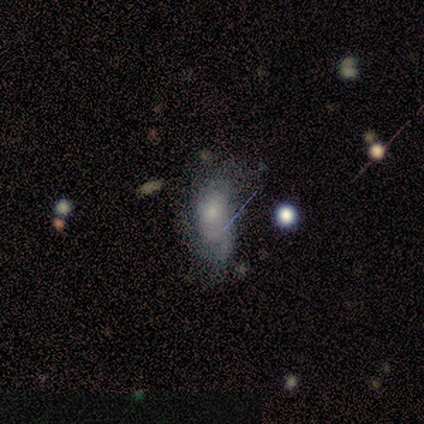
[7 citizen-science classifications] featured or disk 43%, smooth 29%, star or artifact 29%. Down the decision tree: edge-on disk — no (100%); bar — no (100%); spiral arms — yes (67%); spiral arm count — 1 (100%); spiral winding — loose (100%); bulge size — small (100%); merging — minor disturbance (60%).